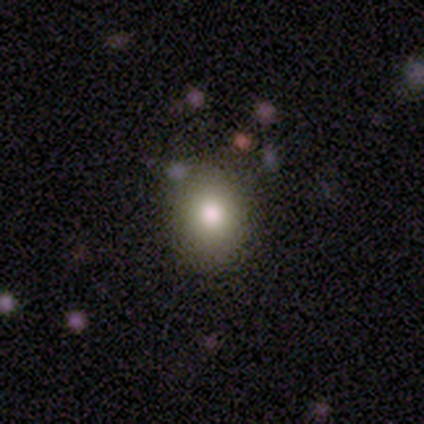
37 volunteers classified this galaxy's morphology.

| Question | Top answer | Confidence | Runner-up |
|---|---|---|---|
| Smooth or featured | smooth | 73% | star or artifact (16%) |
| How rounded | in between | 52% | round (48%) |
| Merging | none | 87% | minor disturbance (6%) |